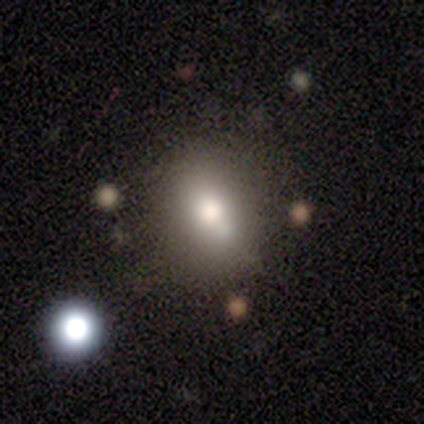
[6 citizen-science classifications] Smooth or featured? 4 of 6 (67%) said smooth. How rounded? 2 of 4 (50%, tied with in between) said round. Merging? 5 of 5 (100%) said none.